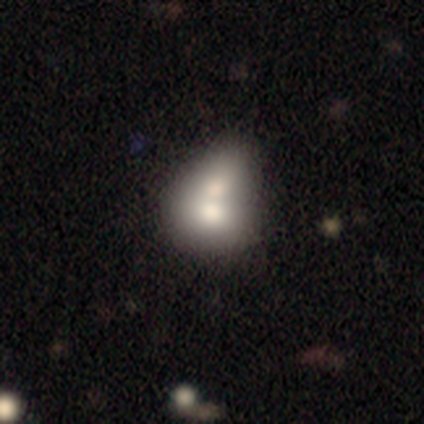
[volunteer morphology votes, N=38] This appears to be a smooth galaxy with no disk features (71%) that is in between round and cigar-shaped (56%). Merging: merger (81%).